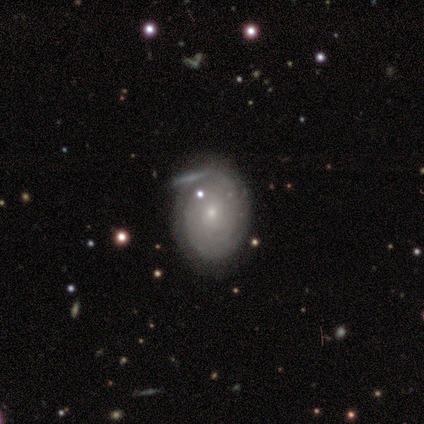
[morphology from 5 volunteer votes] featured or disk 80%, smooth 20%, star or artifact 0%. Down the decision tree: edge-on disk — no (100%); bar — no (100%); spiral arms — yes (100%); spiral arm count — more than 4 (50%, tied with can't tell); spiral winding — tight (100%); bulge size — small (100%); merging — none (60%).